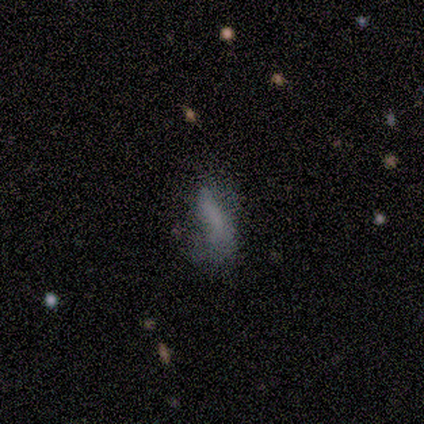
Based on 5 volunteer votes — featured or disk 80%, smooth 20%, star or artifact 0%. Down the decision tree: edge-on disk — no (100%); bar — no (100%); spiral arms — no (100%); bulge size — none (100%); merging — none (40%, tied with major disturbance).